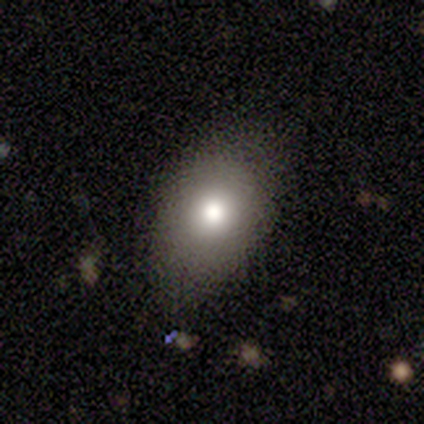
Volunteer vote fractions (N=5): Smooth or featured?
  - smooth: 100% *
  - featured or disk: 0%
  - star or artifact: 0%
How rounded?
  - in between: 100% *
  - round: 0%
  - cigar-shaped: 0%
Merging?
  - minor disturbance: 60% *
  - none: 40%
  - major disturbance: 0%
  - merger: 0%